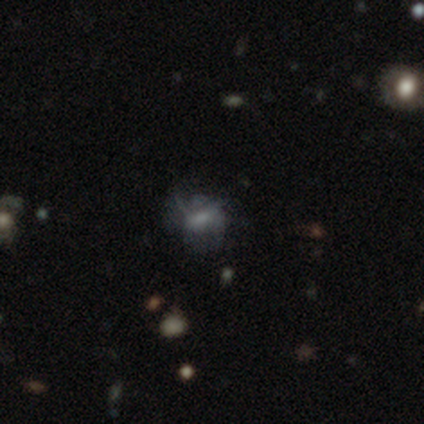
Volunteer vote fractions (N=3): A featured or disk galaxy (100%) with a strong bar (33%, tied with weak and no), 2 (50%, tied with can't tell) loose (100%) spiral arms (67%) and a moderate central bulge (33%, tied with small and none).

Vote fractions:
- Smooth or featured? featured or disk: 100% / smooth: 0% / star or artifact: 0%
- Edge-on disk? no: 100% / yes: 0%
- Bar? strong: 33% (tied) / weak: 33% (tied) / no: 33% (tied)
- Spiral arms? yes: 67% / no: 33%
- Spiral winding? loose: 100% / tight: 0% / medium: 0%
- Spiral arm count? 2: 50% (tied) / can't tell: 50% (tied) / 1: 0% / 3: 0% / 4: 0% / more than 4: 0%
- Bulge size? moderate: 33% (tied) / small: 33% (tied) / none: 33% (tied) / dominant: 0% / large: 0%
- Merging? none: 33% (tied) / minor disturbance: 33% (tied) / major disturbance: 33% (tied) / merger: 0%